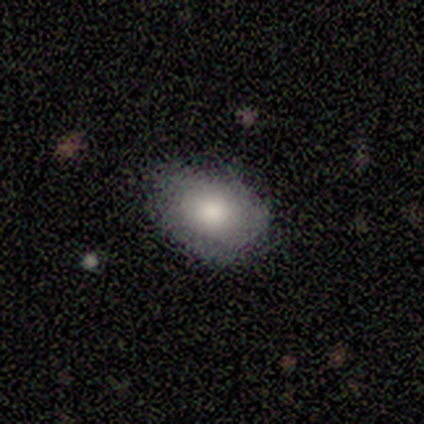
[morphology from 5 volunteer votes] smooth-or-featured: smooth: 40% (tied) | star or artifact: 40% (tied) | featured or disk: 20%
  how-rounded: in between: 100% | round: 0% | cigar-shaped: 0%
  merging: none: 67% | minor disturbance: 33% | major disturbance: 0% | merger: 0%